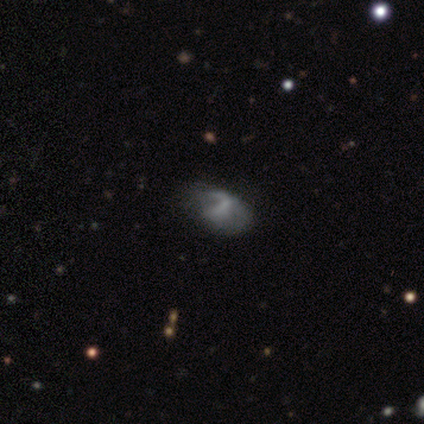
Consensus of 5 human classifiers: Q: Smooth or featured?
A: smooth (80%); runner-up: featured or disk (20%)
Q: How rounded?
A: in between (75%); runner-up: cigar-shaped (25%)
Q: Merging?
A: major disturbance (60%); runner-up: none (20%)